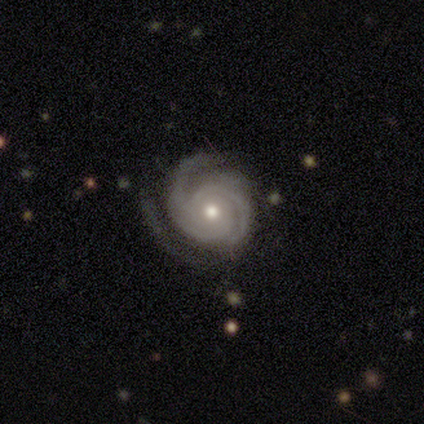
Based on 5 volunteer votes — Overall: featured or disk (100%). Edge-on disk: no (60%; yes 40%). Bar: no (100%). Spiral arms: yes (100%). Spiral arm count: 2 (67%; can't tell 33%). Spiral winding: tight (100%). Bulge size: moderate (100%). Merging: none (60%; minor disturbance 40%).